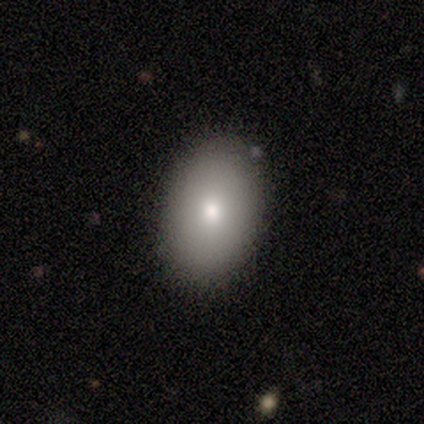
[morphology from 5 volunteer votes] Overall: smooth (100%). How rounded: in between (60%; round 40%). Merging: none (60%; minor disturbance 20%).